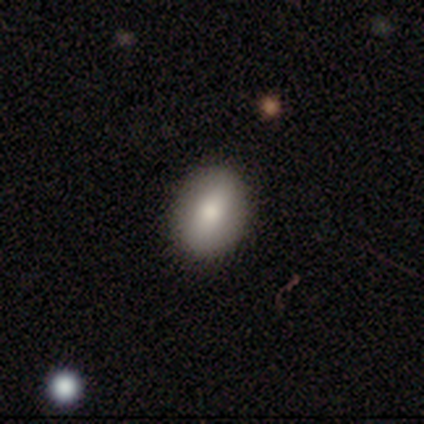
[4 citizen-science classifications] Q: Smooth or featured?
A: smooth (100%)
Q: How rounded?
A: in between (75%); runner-up: round (25%)
Q: Merging?
A: none (75%); runner-up: minor disturbance (25%)